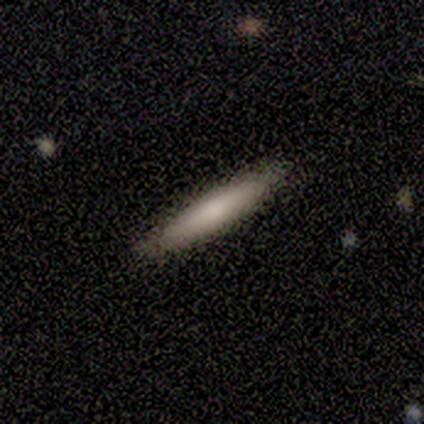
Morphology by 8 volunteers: Smooth or featured: smooth — 75% (featured or disk — 12%)
How rounded: cigar-shaped — 100%
Merging: none — 86% (minor disturbance — 14%)